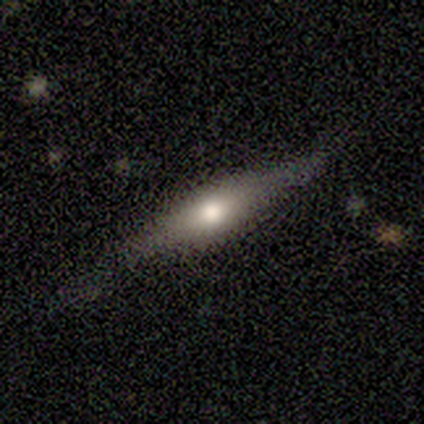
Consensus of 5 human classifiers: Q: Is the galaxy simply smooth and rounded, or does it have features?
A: featured or disk — 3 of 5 (60%).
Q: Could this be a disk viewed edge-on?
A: yes — 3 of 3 (100%).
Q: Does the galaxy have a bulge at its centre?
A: rounded — 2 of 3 (67%).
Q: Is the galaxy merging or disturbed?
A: none — 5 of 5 (100%).